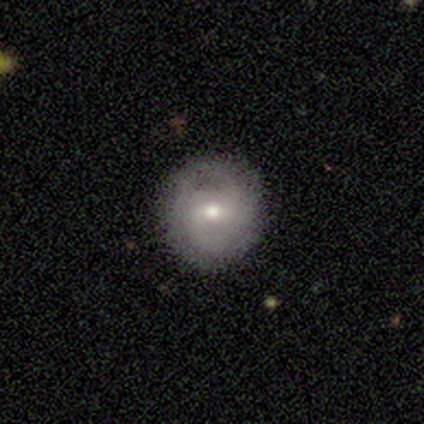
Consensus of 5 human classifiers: Volunteers were most divided on "spiral arms" (2-way tie): yes: 50%, no: 50%; "spiral winding" (2-way tie): tight: 50%, medium: 50%, loose: 0%; "spiral arm count" (2-way tie): 2: 50%, can't tell: 50%, 1: 0%, 3: 0%, 4: 0%, more than 4: 0%. More confident: edge-on disk — no (100%); smooth or featured — featured or disk (80%); merging — none (80%); bulge size — moderate (75%); bar — weak (50%).